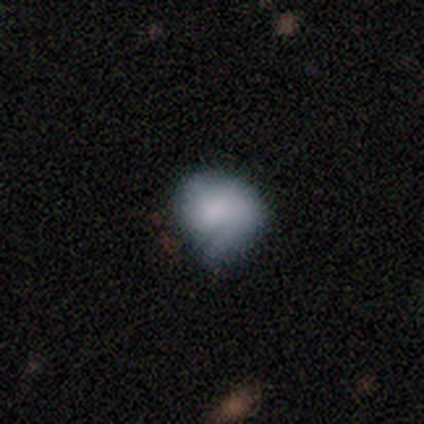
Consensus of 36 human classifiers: smooth-or-featured: smooth: 67% | featured or disk: 31% | star or artifact: 3%
  how-rounded: round: 75% | in between: 25% | cigar-shaped: 0%
  merging: minor disturbance: 43% | none: 37% | major disturbance: 17% | merger: 3%